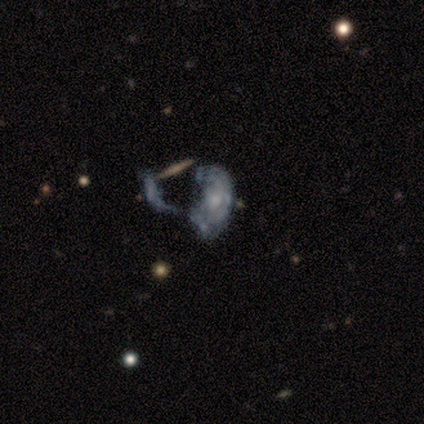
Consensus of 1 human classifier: This is clearly a featured or disk galaxy (100%). It is clearly not viewed edge-on (100%). Bar: clearly no (100%). Spiral arm pattern: clearly yes (100%). Spiral arm count: clearly can't tell (100%). Spiral winding: clearly tight (100%). Central bulge: clearly moderate (100%). Merging: clearly major disturbance (100%).